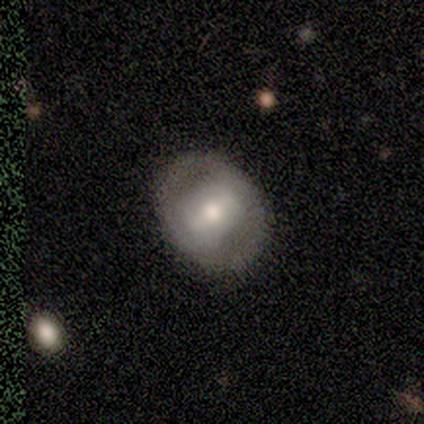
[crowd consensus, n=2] smooth_or_featured: smooth (p=1.00)
how_rounded: round (p=1.00)
merging: none (p=0.50) [tied with: minor disturbance p=0.50]